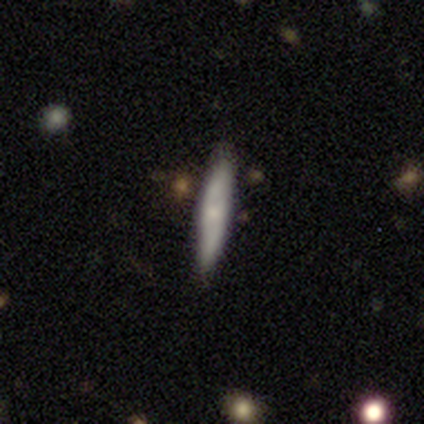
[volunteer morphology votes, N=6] Smooth or featured: smooth — 83% (featured or disk — 17%)
How rounded: cigar-shaped — 80% (in between — 20%)
Merging: none — 83% (minor disturbance — 17%)